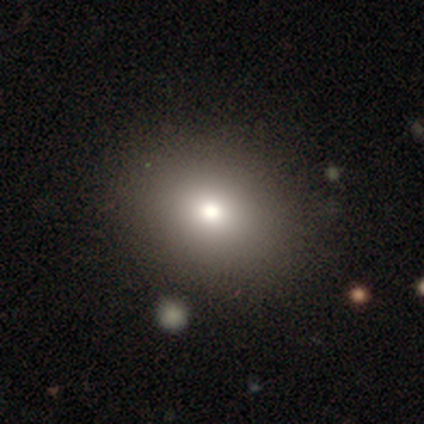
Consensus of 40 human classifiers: smooth_or_featured: smooth (p=0.70) [alt: star or artifact p=0.20]
how_rounded: round (p=0.54) [alt: in between p=0.46]
merging: none (p=0.84) [alt: major disturbance p=0.06]